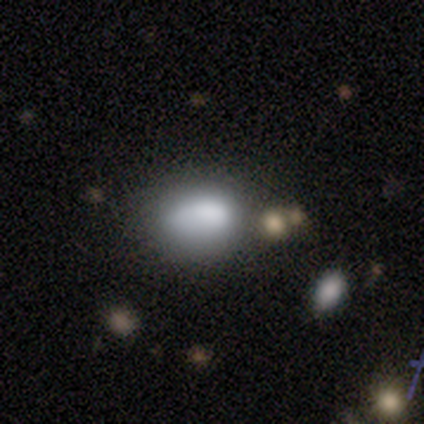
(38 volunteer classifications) This is likely a smooth galaxy (76%). How rounded: likely in between (62%). Merging: possibly none (49%).